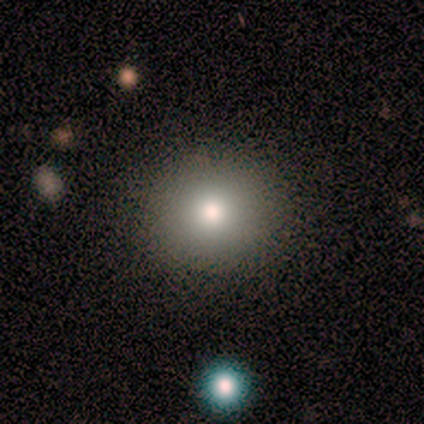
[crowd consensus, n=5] Smooth or featured?
  - smooth: 80% *
  - featured or disk: 20%
  - star or artifact: 0%
How rounded?
  - round: 75% *
  - in between: 25%
  - cigar-shaped: 0%
Merging?
  - none: 100% *
  - minor disturbance: 0%
  - major disturbance: 0%
  - merger: 0%